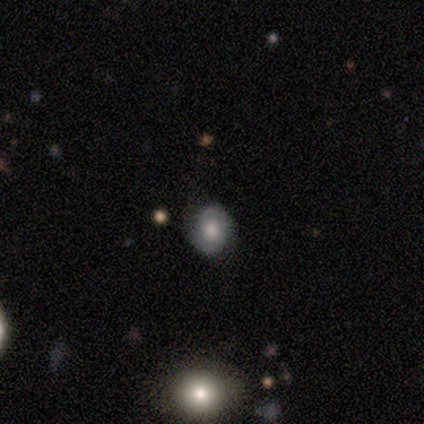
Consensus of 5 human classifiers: A featured or disk galaxy (60%) with no bar (100%), 2 (50%, tied with can't tell) loose (100%) spiral arms (67%) and a large central bulge (67%). Merging: none (100%).